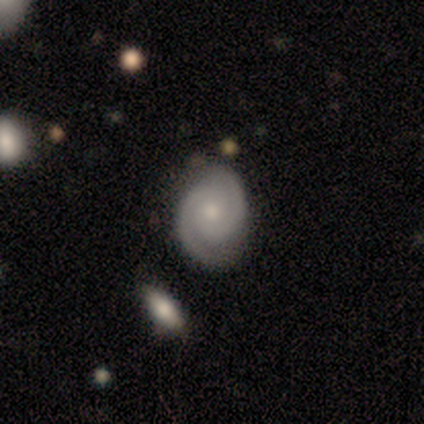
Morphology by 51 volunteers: featured or disk 88%, smooth 6%, star or artifact 6%. Down the decision tree: edge-on disk — no (98%); bar — no (86%); spiral arms — yes (100%); spiral arm count — 2 (98%); spiral winding — tight (82%); bulge size — moderate (50%); merging — none (75%).